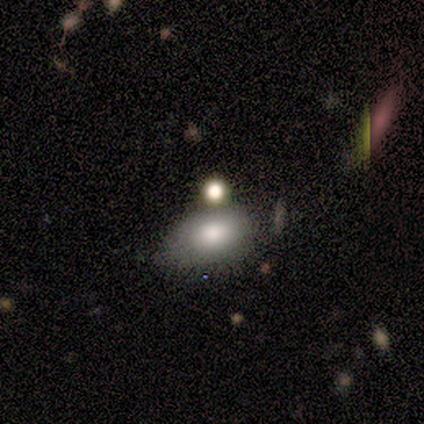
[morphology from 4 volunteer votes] smooth 75%, star or artifact 25%, featured or disk 0%. Down the decision tree: how rounded — in between (67%); merging — none (67%).